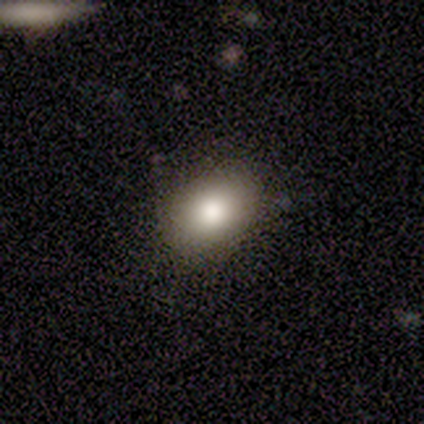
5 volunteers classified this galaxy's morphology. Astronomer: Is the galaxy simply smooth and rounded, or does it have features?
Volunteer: smooth — 80%.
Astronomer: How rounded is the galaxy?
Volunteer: round — 50%, tied with in between at 50%.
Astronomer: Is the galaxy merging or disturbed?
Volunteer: none — 100%.